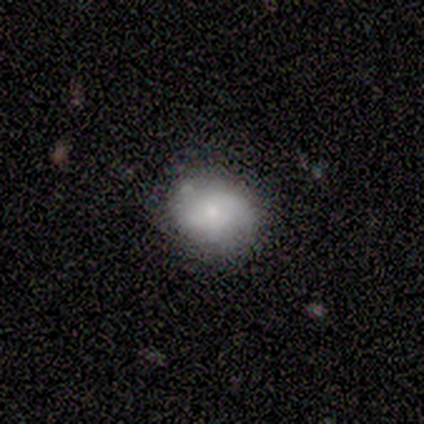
Volunteers were most divided on "how rounded": round: 67%, in between: 33%, cigar-shaped: 0%. More confident: smooth or featured — smooth (75%); merging — none (75%).